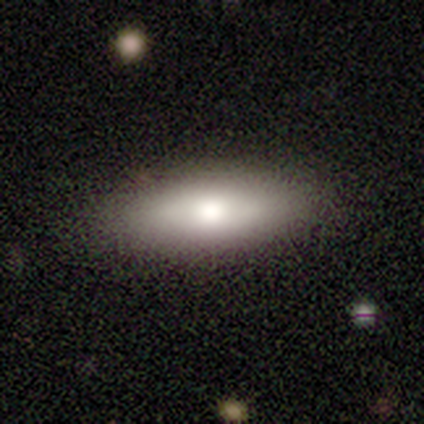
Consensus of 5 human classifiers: Smooth or featured? 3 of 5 (60%) said smooth. How rounded? 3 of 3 (100%) said in between. Merging? 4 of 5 (80%) said none.